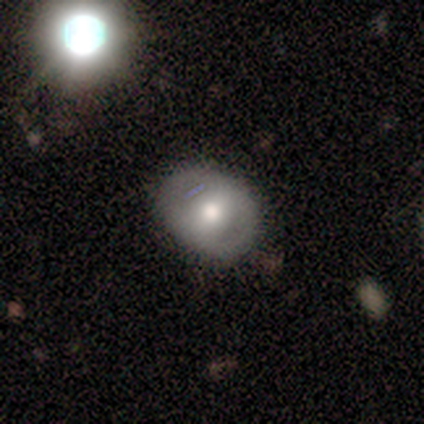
Smooth or featured: featured or disk — 60% (smooth — 40%)
Edge-on disk: no — 100%
Bar: weak — 67% (no — 33%)
Spiral arms: no — 67% (yes — 33%)
Bulge size: moderate — 100%
Merging: none — 80% (minor disturbance — 20%)